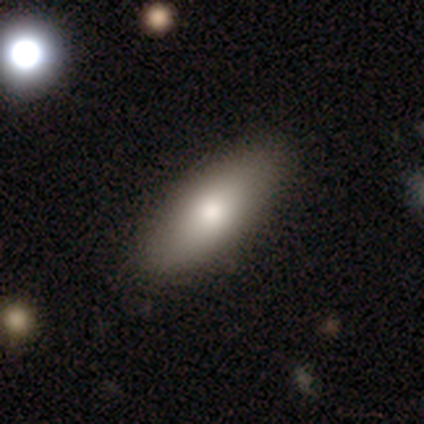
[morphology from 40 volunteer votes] Q: Smooth or featured?
A: smooth (78%); runner-up: featured or disk (15%)
Q: How rounded?
A: in between (87%); runner-up: cigar-shaped (13%)
Q: Merging?
A: none (76%); runner-up: minor disturbance (5%)